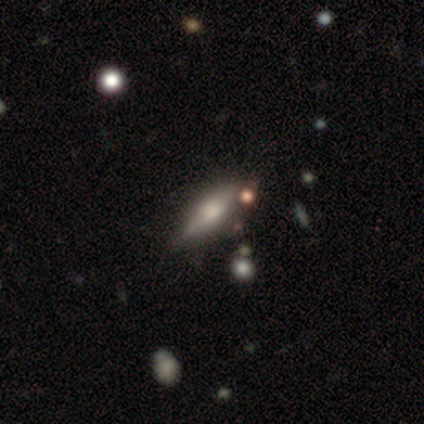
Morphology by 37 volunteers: smooth_or_featured: smooth (p=0.54) [alt: featured or disk p=0.46]
how_rounded: in between (p=0.75) [alt: cigar-shaped p=0.25]
merging: none (p=0.62) [alt: minor disturbance p=0.05]